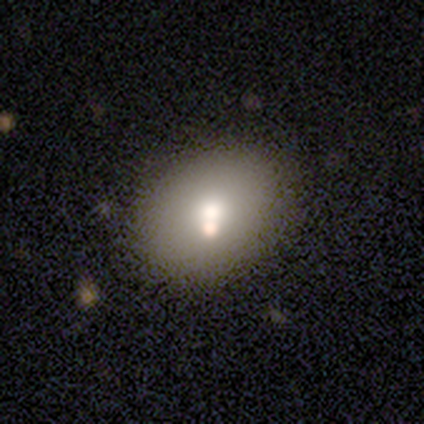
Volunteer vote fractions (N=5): A smooth galaxy with no disk features (100%) that is in between round and cigar-shaped (60%). Merging: none (60%).